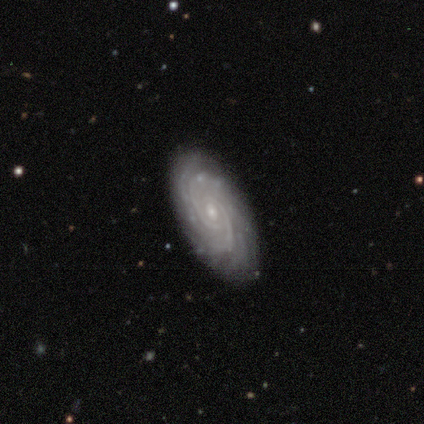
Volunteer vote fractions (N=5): Volunteers were most divided on "spiral arm count" (2-way tie): 2: 40%, can't tell: 40%, 4: 20%, 1: 0%, 3: 0%, more than 4: 0%. More confident: smooth or featured — featured or disk (100%); edge-on disk — no (100%); bar — no (100%); spiral arms — yes (100%); spiral winding — tight (80%); bulge size — small (80%); merging — none (60%).